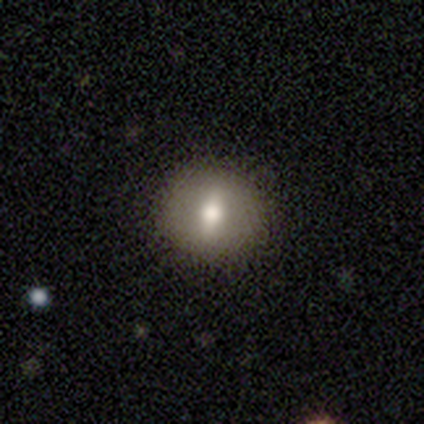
smooth 67%, featured or disk 33%, star or artifact 0%. Down the decision tree: how rounded — round (100%); merging — none (100%).